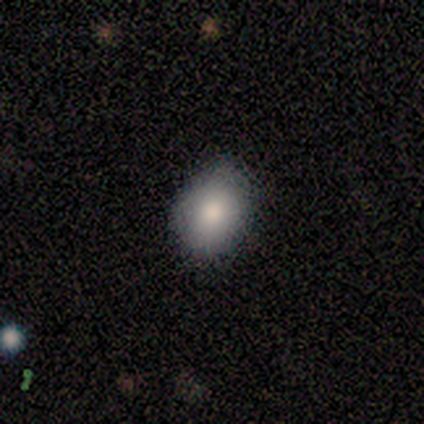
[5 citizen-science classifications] A smooth galaxy with no disk features (100%) that is in between round and cigar-shaped (80%).

Vote fractions:
- Smooth or featured? smooth: 100% / featured or disk: 0% / star or artifact: 0%
- How rounded? in between: 80% / round: 20% / cigar-shaped: 0%
- Merging? none: 80% / minor disturbance: 20% / major disturbance: 0% / merger: 0%